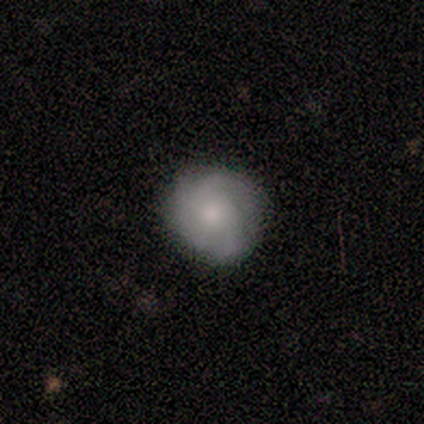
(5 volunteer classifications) Smooth or featured? 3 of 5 (60%) said smooth. How rounded? 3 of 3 (100%) said round. Merging? 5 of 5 (100%) said none.